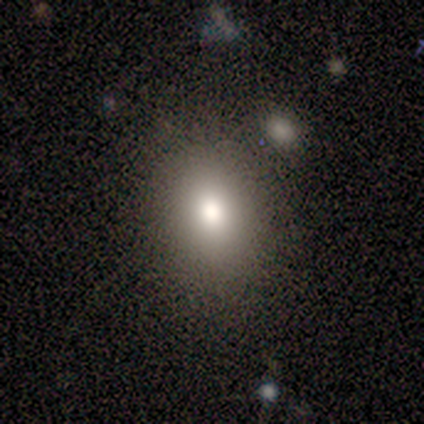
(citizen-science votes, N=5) A smooth galaxy with no disk features (80%) that is round (50%, tied with in between). Merging: none (100%).